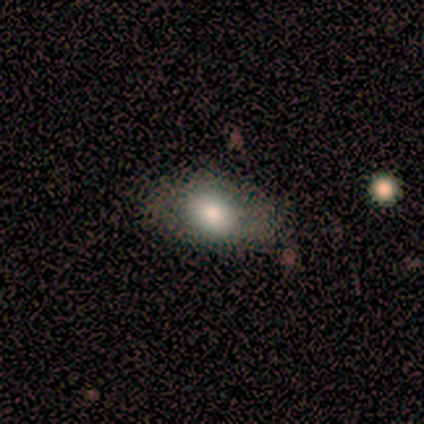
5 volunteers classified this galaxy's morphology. Smooth or featured: smooth — 80% (star or artifact — 20%)
How rounded: in between — 75% (round — 25%)
Merging: none — 50% (minor disturbance — 25%)